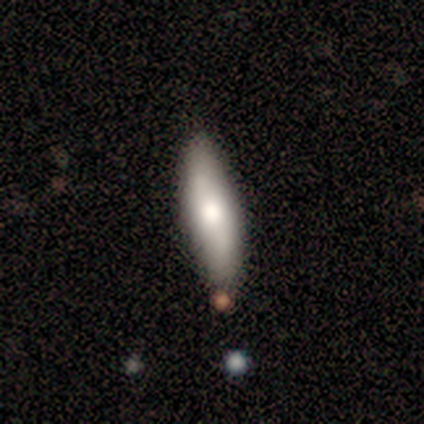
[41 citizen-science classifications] smooth_or_featured: smooth (p=0.54) [alt: featured or disk p=0.41]
how_rounded: cigar-shaped (p=0.64) [alt: in between p=0.36]
merging: none (p=0.72) [alt: minor disturbance p=0.23]